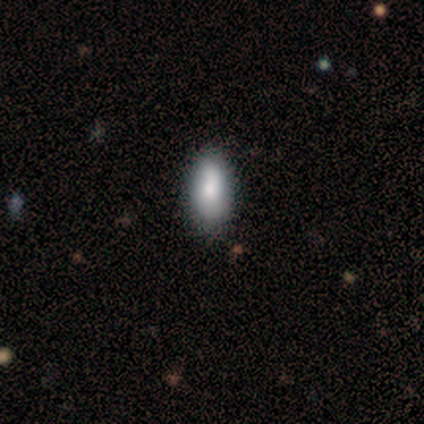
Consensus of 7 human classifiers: This appears to be a smooth galaxy with no disk features (100%) that is in between round and cigar-shaped (86%). Merging: none (100%).